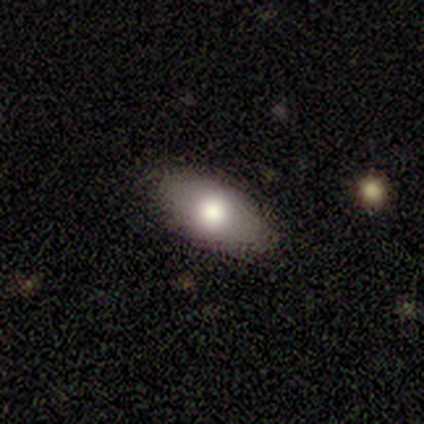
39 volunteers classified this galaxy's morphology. Overall: smooth (67%). How rounded: in between (96%). Merging: none (86%).